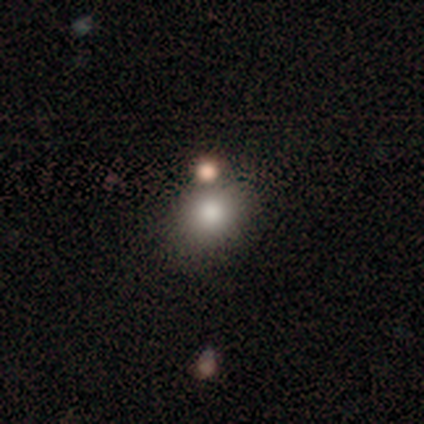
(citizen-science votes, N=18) Smooth or featured: smooth — 78% (featured or disk — 11%)
How rounded: round — 64% (in between — 36%)
Merging: none — 75% (merger — 19%)